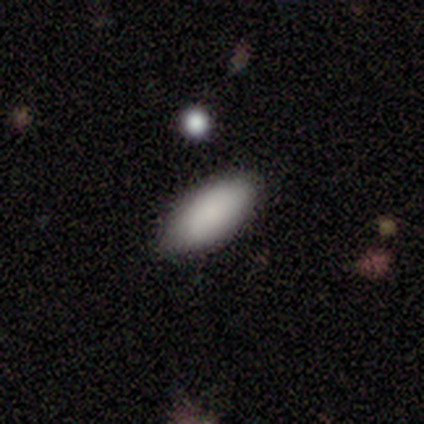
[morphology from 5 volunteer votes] smooth_or_featured: smooth (p=1.00)
how_rounded: in between (p=0.80) [alt: cigar-shaped p=0.20]
merging: none (p=1.00)